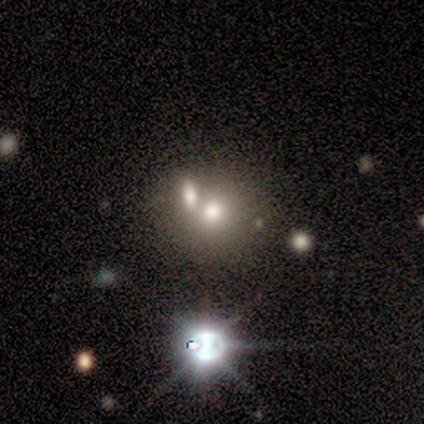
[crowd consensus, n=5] Volunteers were most divided on "how rounded": round: 75%, in between: 25%, cigar-shaped: 0%. More confident: smooth or featured — smooth (80%); merging — merger (75%).